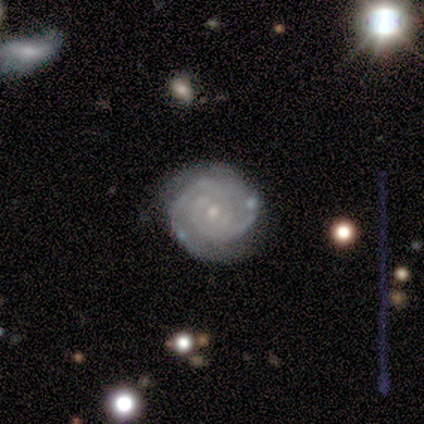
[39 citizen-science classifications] featured or disk 95%, smooth 3%, star or artifact 3%. Down the decision tree: edge-on disk — no (100%); bar — no (59%); spiral arms — yes (97%); spiral arm count — 2 (64%); spiral winding — tight (81%); bulge size — small (73%); merging — none (87%).